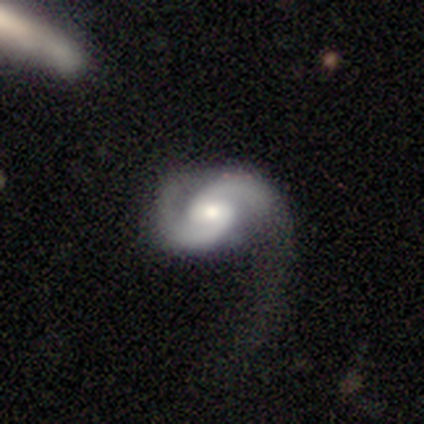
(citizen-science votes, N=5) Smooth or featured? featured or disk (100%)
Edge-on disk? no (100%)
Bar? no (60%)
Spiral arms? yes (100%)
Spiral winding? medium (40%, tied with loose)
Spiral arm count? 2 (100%)
Bulge size? moderate (60%)
Merging? major disturbance (80%)